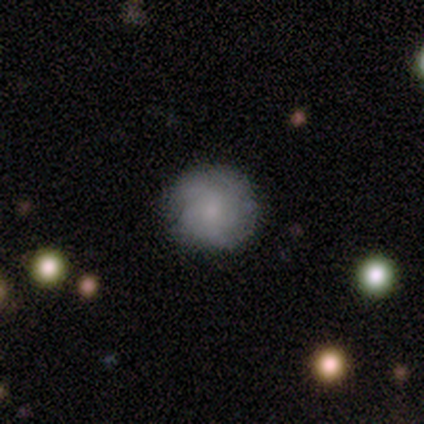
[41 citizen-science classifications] smooth_or_featured: smooth (p=0.51) [alt: featured or disk p=0.39]
how_rounded: round (p=0.95) [alt: in between p=0.05]
merging: none (p=0.76) [alt: minor disturbance p=0.14]